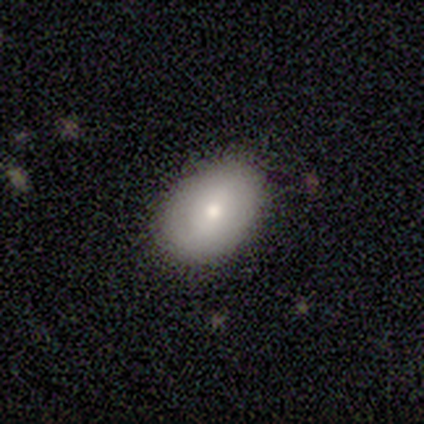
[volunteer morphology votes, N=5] This appears to be a smooth galaxy with no disk features (60%) that is in between round and cigar-shaped (67%). Merging: none (80%).